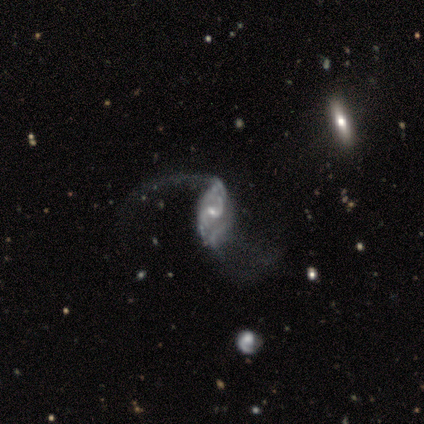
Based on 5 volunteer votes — Q: Smooth or featured?
A: featured or disk (100%)
Q: Edge-on disk?
A: no (100%)
Q: Bar?
A: weak (40%); tied with: no (40%)
Q: Spiral arms?
A: yes (100%)
Q: Spiral winding?
A: loose (80%); runner-up: medium (20%)
Q: Spiral arm count?
A: 2 (100%)
Q: Bulge size?
A: large (40%); tied with: moderate (40%)
Q: Merging?
A: minor disturbance (40%); tied with: major disturbance (40%)